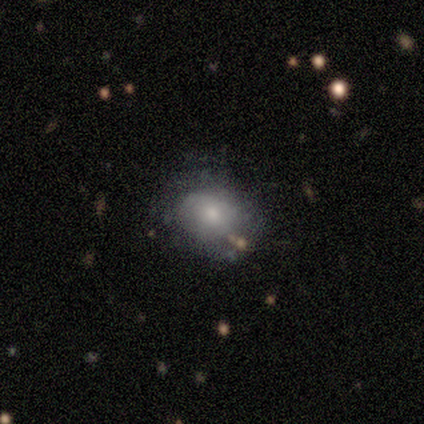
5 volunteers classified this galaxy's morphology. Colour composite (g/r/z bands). It shows a smooth galaxy with no disk features (60%) that is round (67%). Merging: none (75%).